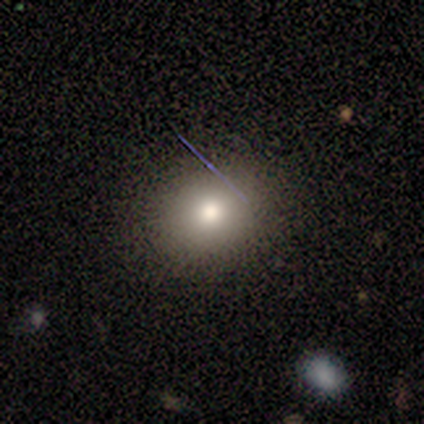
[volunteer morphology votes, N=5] Smooth or featured? 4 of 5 (80%) said smooth. How rounded? 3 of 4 (75%) said round. Merging? 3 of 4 (75%) said none.